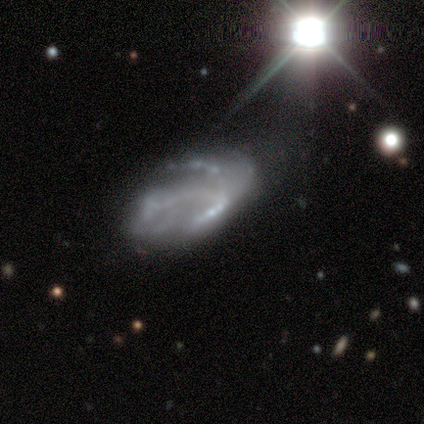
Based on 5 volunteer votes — Smooth or featured: featured or disk — 100%
Edge-on disk: no — 100%
Bar: no — 100%
Spiral arms: no — 60% (yes — 40%)
Bulge size: none — 100%
Merging: none — 60% (minor disturbance — 20%)